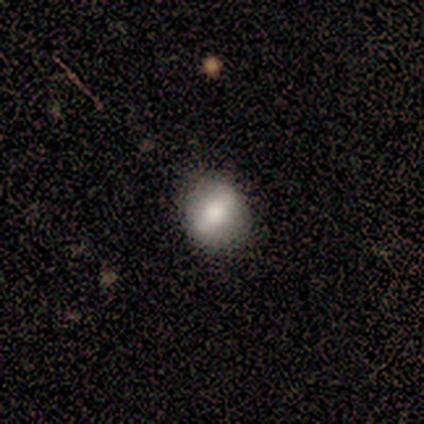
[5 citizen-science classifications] Morphology: type=featured or disk (60%); edge-on=no (100%); bar=strong (67%); spiral arms=no (100%); bulge=large (67%); merging=none (100%).